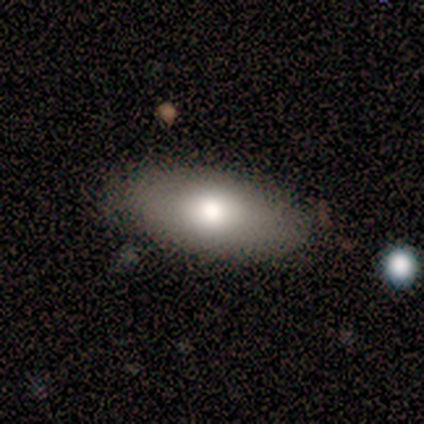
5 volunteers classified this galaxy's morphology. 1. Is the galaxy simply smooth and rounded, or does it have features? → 80% smooth, 20% star or artifact, 0% featured or disk.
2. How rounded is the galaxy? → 100% in between, 0% round, 0% cigar-shaped.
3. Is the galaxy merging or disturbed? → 100% none, 0% minor disturbance, 0% major disturbance, 0% merger.